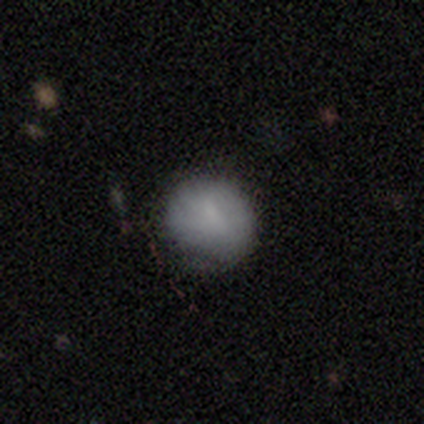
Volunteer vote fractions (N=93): Volunteers were most divided on "merging": none: 70%, minor disturbance: 26%, major disturbance: 3%, merger: 0%. More confident: how rounded — round (87%); smooth or featured — smooth (81%).